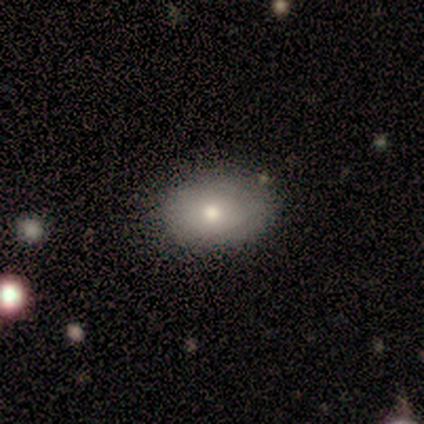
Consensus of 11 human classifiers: Overall: smooth (91%). How rounded: in between (70%; round 30%). Merging: none (100%).